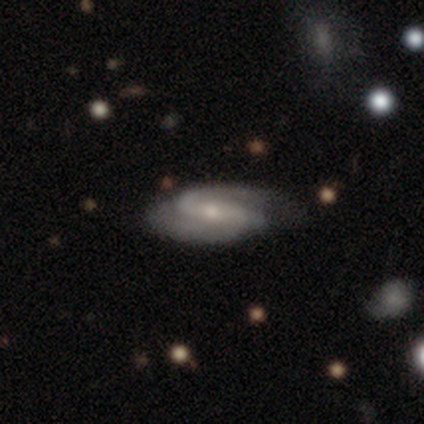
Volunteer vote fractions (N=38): smooth-or-featured: featured or disk: 87% | smooth: 13% | star or artifact: 0%
  disk-edge-on: no: 94% | yes: 6%
    bar: strong: 52% | weak: 35% | no: 13%
    has-spiral-arms: yes: 100% | no: 0%
      spiral-winding: medium: 39% | loose: 35% | tight: 26%
      spiral-arm-count: 2: 94% | 1: 3% | 4: 3% | 3: 0% | more than 4: 0% | can't tell: 0%
    bulge-size: small: 52% | moderate: 42% | dominant: 3% | none: 3% | large: 0%
  merging: none: 50% | minor disturbance: 5% | major disturbance: 5% | merger: 3%